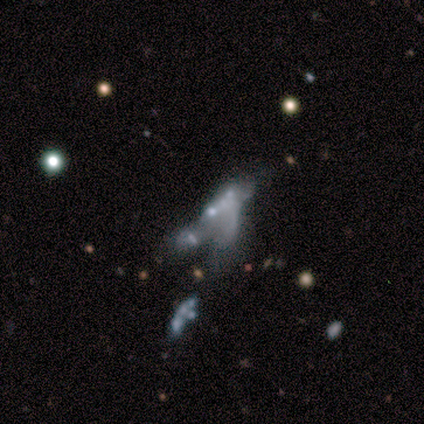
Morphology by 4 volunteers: featured or disk 75%, star or artifact 25%, smooth 0%. Down the decision tree: edge-on disk — no (100%); bar — no (100%); spiral arms — no (67%); bulge size — large (33%, tied with moderate and none); merging — major disturbance (100%).